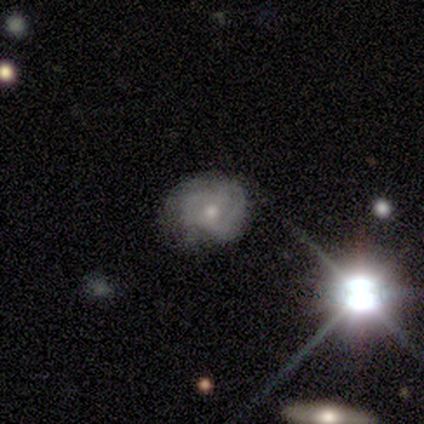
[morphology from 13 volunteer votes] Smooth or featured: featured or disk — 69% (smooth — 15%)
Edge-on disk: no — 100%
Bar: no — 67% (weak — 22%)
Spiral arms: yes — 67% (no — 33%)
Spiral winding: tight — 50% (loose — 33%)
Spiral arm count: 2 — 33% (tied with 3 — 33%; can't tell — 33%)
Bulge size: moderate — 44% (small — 33%)
Merging: none — 64% (minor disturbance — 36%)